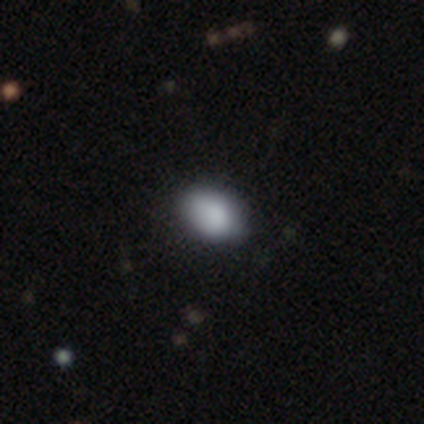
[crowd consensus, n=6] smooth-or-featured: smooth: 100% | featured or disk: 0% | star or artifact: 0%
  how-rounded: in between: 100% | round: 0% | cigar-shaped: 0%
  merging: none: 50% (tied) | minor disturbance: 50% (tied) | major disturbance: 0% | merger: 0%